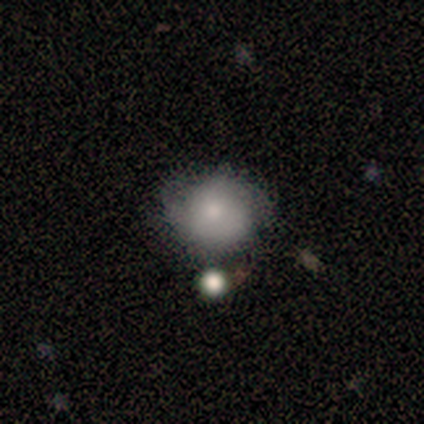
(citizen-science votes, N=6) Smooth or featured? 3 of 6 (50%, tied with featured or disk) said smooth. How rounded? 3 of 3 (100%) said round. Merging? 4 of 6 (67%) said none.